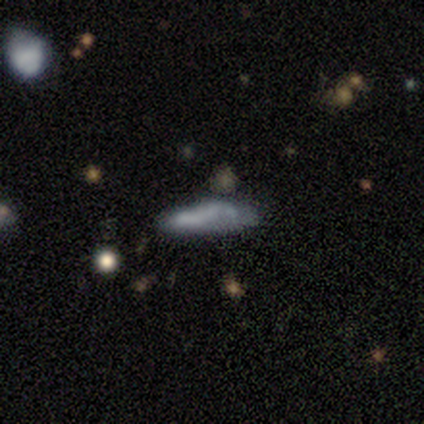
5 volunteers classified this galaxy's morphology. Smooth or featured? smooth (80%)
How rounded? in between (50%, tied with cigar-shaped)
Merging? none (40%, tied with major disturbance)